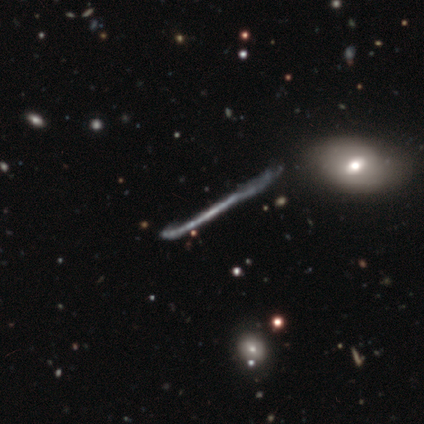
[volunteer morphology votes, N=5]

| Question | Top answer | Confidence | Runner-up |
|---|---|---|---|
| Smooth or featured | featured or disk | 60% | smooth (20%) |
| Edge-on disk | yes | 100% | — |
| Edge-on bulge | none | 100% | — |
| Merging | none | 50% | tied: minor disturbance (50%) |